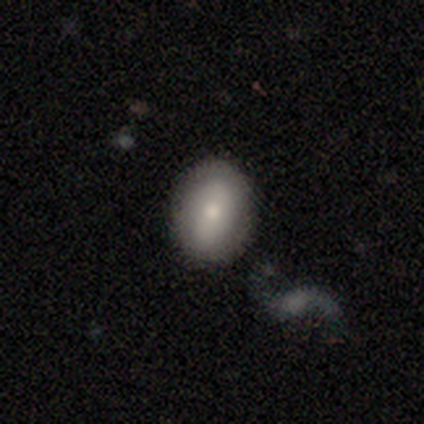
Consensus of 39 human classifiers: smooth_or_featured: smooth (p=0.69) [alt: featured or disk p=0.23]
how_rounded: in between (p=0.78) [alt: round p=0.22]
merging: none (p=0.75) [alt: minor disturbance p=0.17]